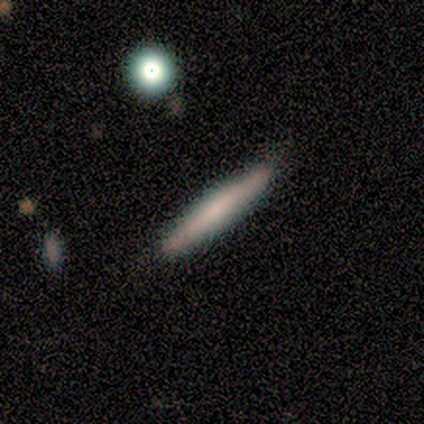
smooth 100%, featured or disk 0%, star or artifact 0%. Down the decision tree: how rounded — cigar-shaped (100%); merging — none (100%).